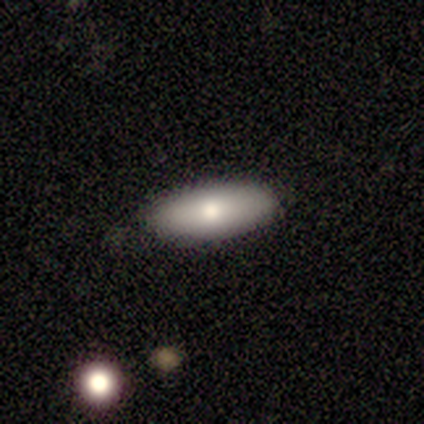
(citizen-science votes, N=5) smooth_or_featured: smooth (p=0.80) [alt: featured or disk p=0.20]
how_rounded: in between (p=0.75) [alt: cigar-shaped p=0.25]
merging: none (p=0.60) [alt: minor disturbance p=0.20]